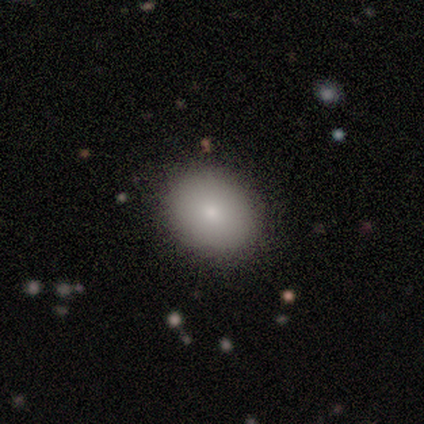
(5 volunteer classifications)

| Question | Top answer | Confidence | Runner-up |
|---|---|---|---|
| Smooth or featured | smooth | 80% | star or artifact (20%) |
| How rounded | in between | 75% | round (25%) |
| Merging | none | 100% | — |